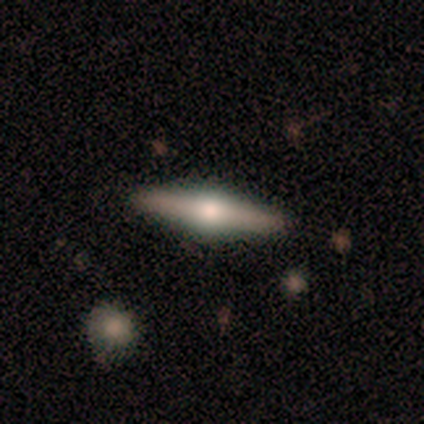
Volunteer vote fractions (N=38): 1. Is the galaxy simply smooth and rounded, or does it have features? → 71% featured or disk, 29% smooth, 0% star or artifact.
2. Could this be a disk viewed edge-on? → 100% yes, 0% no.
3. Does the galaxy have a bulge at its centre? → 100% rounded, 0% boxy, 0% none.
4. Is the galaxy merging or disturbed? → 87% none, 8% minor disturbance, 5% merger, 0% major disturbance.